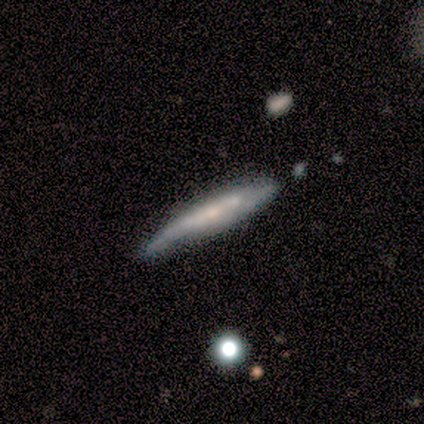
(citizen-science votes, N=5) Smooth or featured? featured or disk (60%)
Edge-on disk? yes (100%)
Edge-on bulge? none (67%)
Merging? minor disturbance (60%)